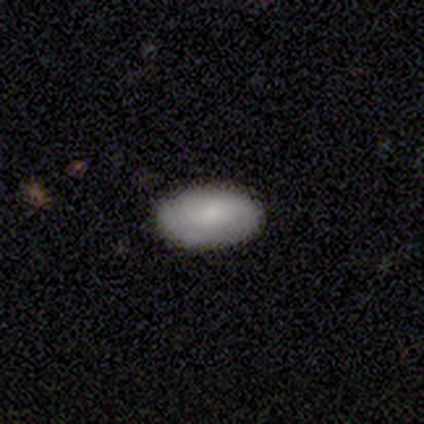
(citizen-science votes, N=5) Overall: smooth (60%; featured or disk 40%). How rounded: in between (100%). Merging: none (60%; minor disturbance 20%).